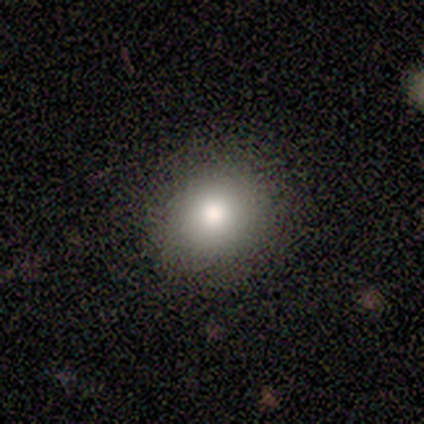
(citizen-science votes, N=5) A smooth galaxy with no disk features (60%) that is round (67%). Merging: none (100%).